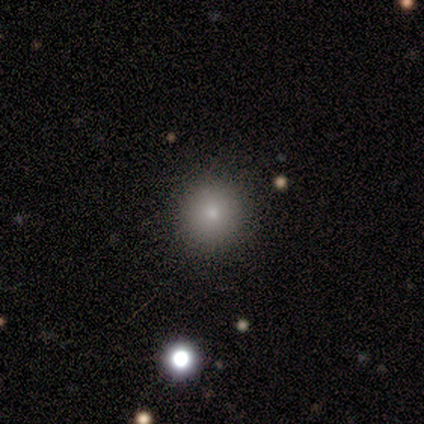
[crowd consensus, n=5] Morphology: type=smooth (100%); roundness=round (100%); merging=none (100%).